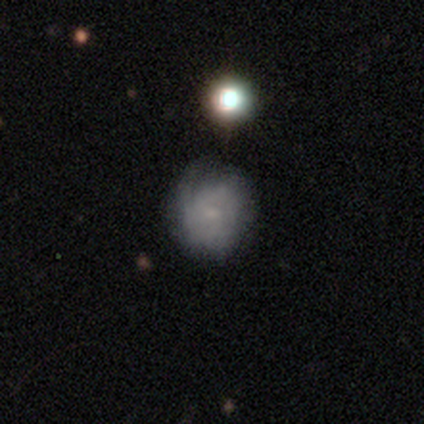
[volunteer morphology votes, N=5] This appears to be a smooth galaxy with no disk features (60%) that is round (100%). Merging: none (60%).